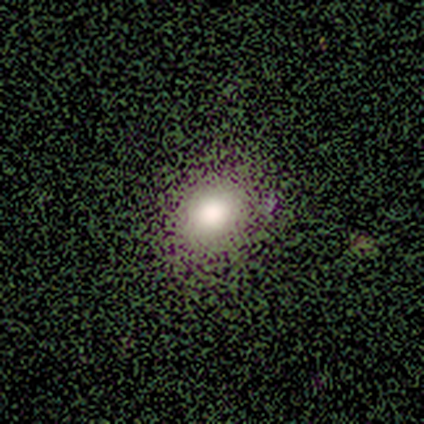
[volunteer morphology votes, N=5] Smooth or featured? 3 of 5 (60%) said smooth. How rounded? 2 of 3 (67%) said in between. Merging? 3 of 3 (100%) said none.